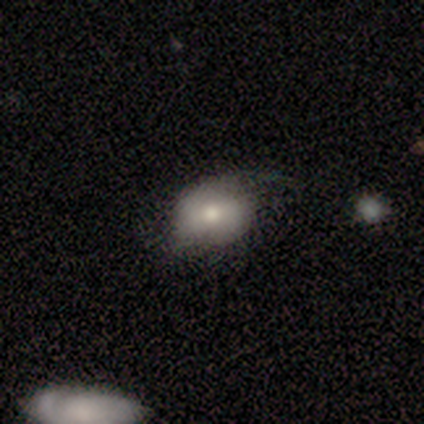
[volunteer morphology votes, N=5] Q: Smooth or featured?
A: smooth (80%); runner-up: star or artifact (20%)
Q: How rounded?
A: round (50%); tied with: in between (50%)
Q: Merging?
A: minor disturbance (75%); runner-up: none (25%)